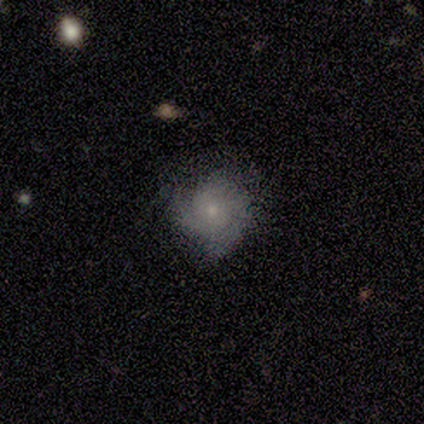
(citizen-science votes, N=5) Smooth or featured? featured or disk (60%)
Edge-on disk? no (100%)
Bar? no (100%)
Spiral arms? yes (67%)
Spiral winding? tight (50%, tied with medium)
Spiral arm count? 2 (100%)
Bulge size? small (100%)
Merging? none (60%)